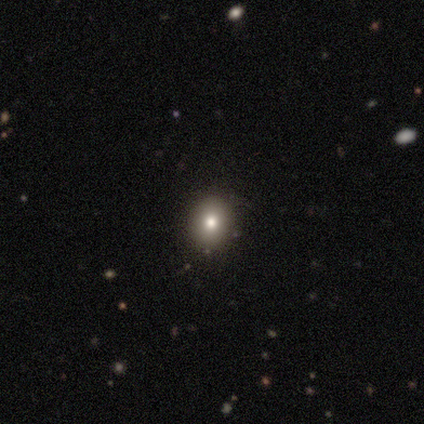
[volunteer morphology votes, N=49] smooth-or-featured: smooth: 73% | star or artifact: 14% | featured or disk: 12%
  how-rounded: round: 64% | in between: 36% | cigar-shaped: 0%
  merging: none: 95% | minor disturbance: 5% | major disturbance: 0% | merger: 0%